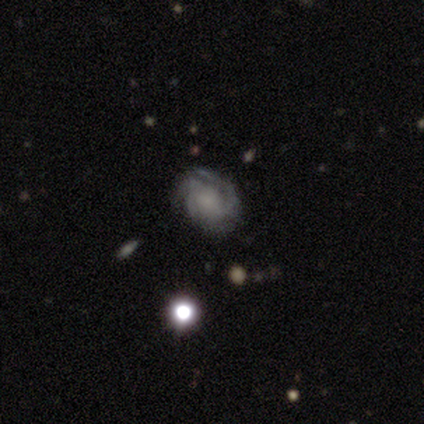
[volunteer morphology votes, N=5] Smooth or featured? featured or disk (60%)
Edge-on disk? no (100%)
Bar? no (100%)
Spiral arms? yes (100%)
Spiral winding? tight (100%)
Spiral arm count? can't tell (100%)
Bulge size? none (67%)
Merging? none (80%)